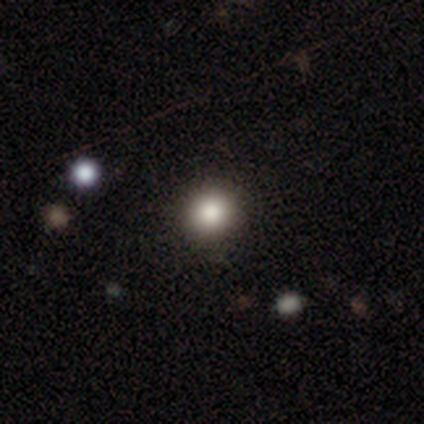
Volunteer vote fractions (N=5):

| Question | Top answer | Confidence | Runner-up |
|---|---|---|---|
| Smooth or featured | smooth | 80% | featured or disk (20%) |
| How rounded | round | 100% | — |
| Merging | none | 80% | minor disturbance (20%) |